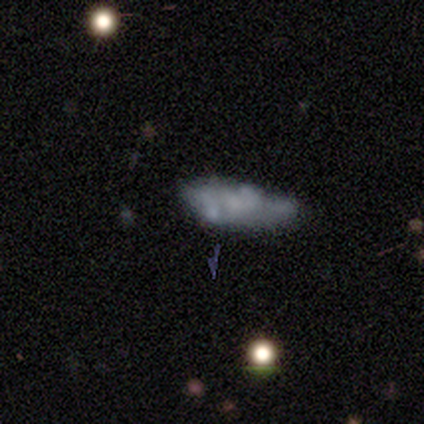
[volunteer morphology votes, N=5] Smooth or featured: featured or disk — 60% (smooth — 20%)
Edge-on disk: no — 100%
Bar: no — 100%
Spiral arms: no — 67% (yes — 33%)
Bulge size: none — 67% (small — 33%)
Merging: minor disturbance — 50% (major disturbance — 25%)